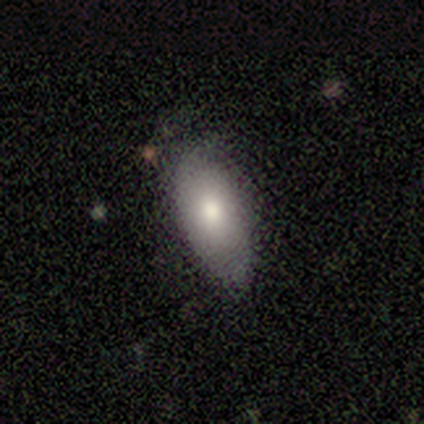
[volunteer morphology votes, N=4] smooth 100%, featured or disk 0%, star or artifact 0%. Down the decision tree: how rounded — in between (100%); merging — none (100%).